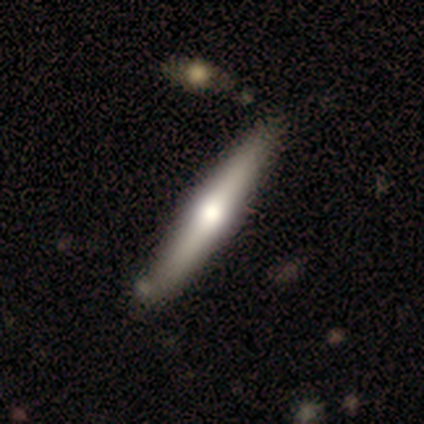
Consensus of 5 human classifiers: Smooth or featured? 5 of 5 (100%) said featured or disk. Edge-on disk? 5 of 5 (100%) said yes. Edge-on bulge? 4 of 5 (80%) said rounded. Merging? 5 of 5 (100%) said none.